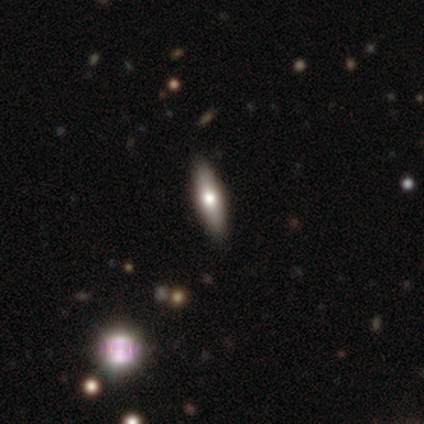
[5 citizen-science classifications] Volunteers were most divided on "smooth or featured": star or artifact: 60%, smooth: 20%, featured or disk: 20%.